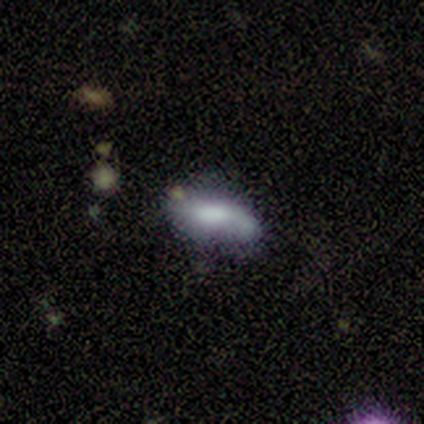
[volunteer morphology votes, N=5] smooth_or_featured: smooth (p=1.00)
how_rounded: in between (p=0.80) [alt: cigar-shaped p=0.20]
merging: none (p=0.80) [alt: minor disturbance p=0.20]